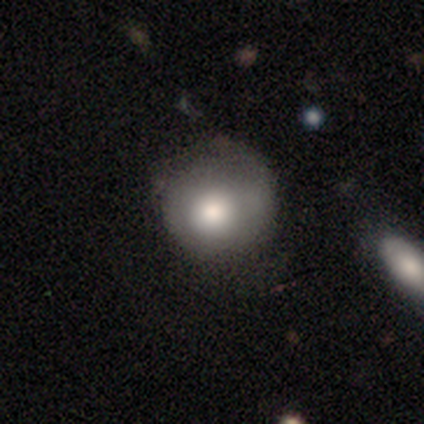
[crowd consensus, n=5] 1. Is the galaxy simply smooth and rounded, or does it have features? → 100% smooth, 0% featured or disk, 0% star or artifact.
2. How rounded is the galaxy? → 80% round, 20% in between, 0% cigar-shaped.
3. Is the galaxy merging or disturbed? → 60% minor disturbance, 40% none, 0% major disturbance, 0% merger.